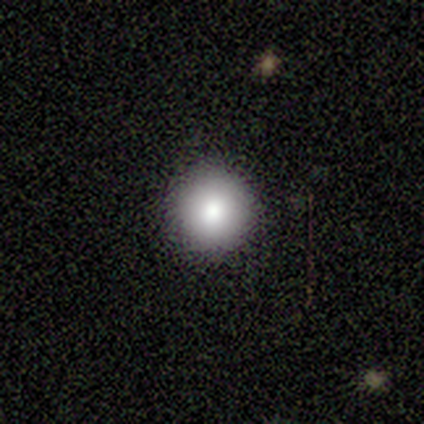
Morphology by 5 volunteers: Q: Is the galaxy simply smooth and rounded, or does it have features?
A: smooth — 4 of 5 (80%).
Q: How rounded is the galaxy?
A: round — 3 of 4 (75%).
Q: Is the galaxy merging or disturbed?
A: none — 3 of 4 (75%).